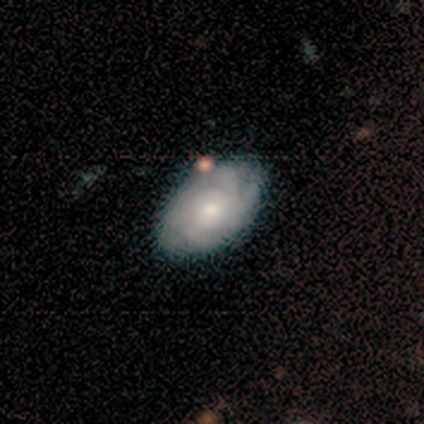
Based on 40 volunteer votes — Smooth or featured: featured or disk — 80% (smooth — 10%)
Edge-on disk: no — 100%
Bar: no — 84% (weak — 12%)
Spiral arms: yes — 88% (no — 12%)
Spiral winding: tight — 61% (medium — 29%)
Spiral arm count: 4 — 36% (can't tell — 29%)
Bulge size: moderate — 66% (small — 28%)
Merging: none — 53% (minor disturbance — 8%)